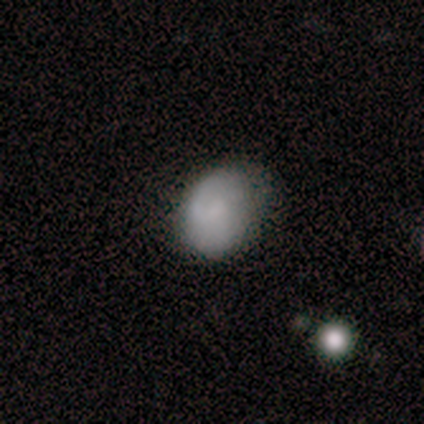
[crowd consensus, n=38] This is clearly a smooth galaxy (84%). How rounded: likely in between (72%). Merging: likely none (74%).